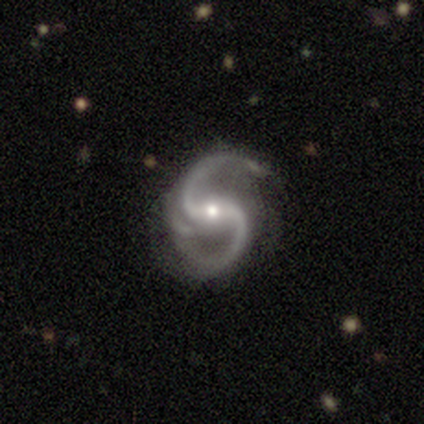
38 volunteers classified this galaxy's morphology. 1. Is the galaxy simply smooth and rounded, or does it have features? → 95% featured or disk, 3% smooth, 3% star or artifact.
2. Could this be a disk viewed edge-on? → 100% no, 0% yes.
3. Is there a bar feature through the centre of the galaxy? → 53% strong, 33% weak, 14% no.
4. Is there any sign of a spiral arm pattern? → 100% yes, 0% no.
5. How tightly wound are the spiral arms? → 61% medium, 36% loose, 3% tight.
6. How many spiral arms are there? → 89% 2, 11% 3, 0% 1, 0% 4, 0% more than 4, 0% can't tell.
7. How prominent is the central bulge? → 56% small, 42% moderate, 3% large, 0% dominant, 0% none.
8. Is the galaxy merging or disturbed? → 62% none, 32% minor disturbance, 3% major disturbance, 3% merger.